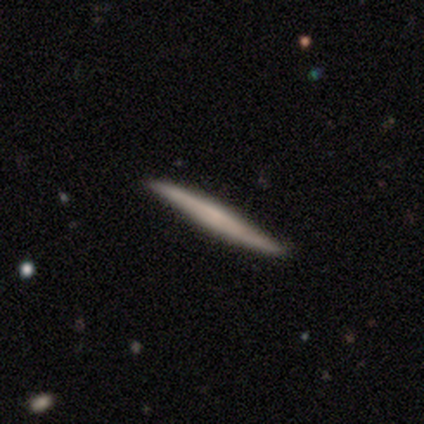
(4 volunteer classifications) A featured or disk galaxy (75%) viewed edge-on (100%) with a boxy central bulge (33%, tied with none and rounded).

Vote fractions:
- Smooth or featured? featured or disk: 75% / smooth: 25% / star or artifact: 0%
- Edge-on disk? yes: 100% / no: 0%
- Edge-on bulge? boxy: 33% (tied) / none: 33% (tied) / rounded: 33% (tied)
- Merging? none: 75% / minor disturbance: 25% / major disturbance: 0% / merger: 0%